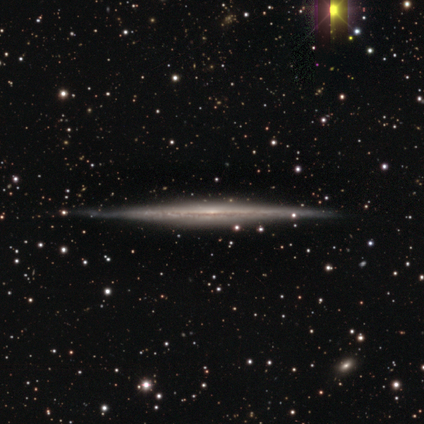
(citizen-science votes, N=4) A featured or disk galaxy (75%) viewed edge-on (100%) with no central bulge (67%). Merging: none (100%).